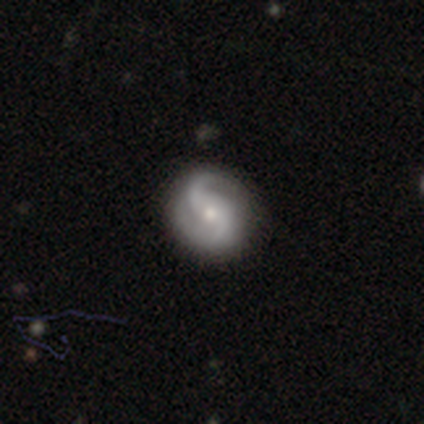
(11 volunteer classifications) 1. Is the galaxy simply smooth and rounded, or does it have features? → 100% featured or disk, 0% smooth, 0% star or artifact.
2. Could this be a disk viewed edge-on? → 100% no, 0% yes.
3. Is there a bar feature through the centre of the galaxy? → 55% no, 45% weak, 0% strong.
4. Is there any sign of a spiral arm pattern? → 91% yes, 9% no.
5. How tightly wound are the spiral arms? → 60% medium, 30% loose, 10% tight.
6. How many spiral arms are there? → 100% 2, 0% 1, 0% 3, 0% 4, 0% more than 4, 0% can't tell.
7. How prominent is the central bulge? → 73% small, 27% moderate, 0% dominant, 0% large, 0% none.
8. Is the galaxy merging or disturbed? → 82% none, 18% minor disturbance, 0% major disturbance, 0% merger.